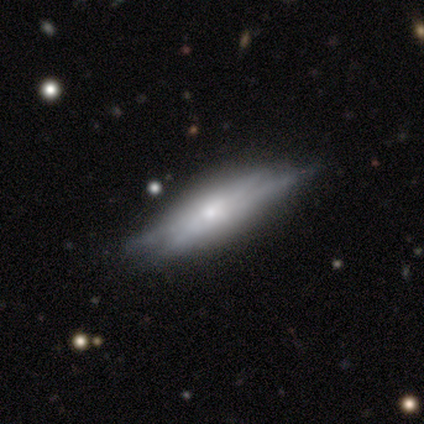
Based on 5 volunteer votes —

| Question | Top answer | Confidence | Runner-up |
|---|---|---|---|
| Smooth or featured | featured or disk | 60% | smooth (40%) |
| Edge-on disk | yes | 100% | — |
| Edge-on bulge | boxy | 33% | tied: none (33%), rounded (33%) |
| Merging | none | 60% | minor disturbance (20%) |